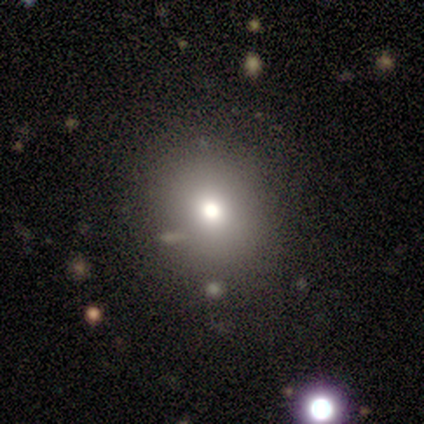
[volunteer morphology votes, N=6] Q: Smooth or featured?
A: star or artifact (50%); runner-up: smooth (33%)